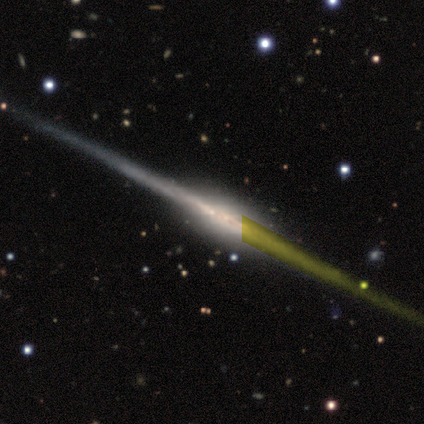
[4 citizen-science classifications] Overall: featured or disk (100%). Edge-on disk: yes (100%). Edge-on bulge: none (50%; boxy 25%). Merging: none (75%).